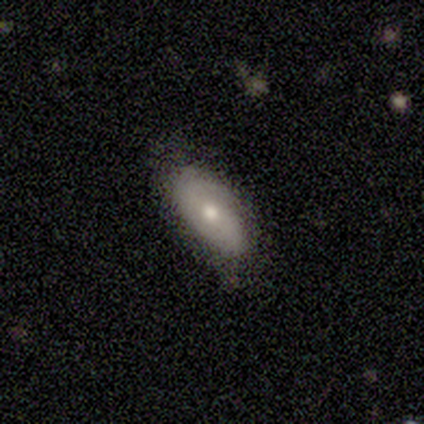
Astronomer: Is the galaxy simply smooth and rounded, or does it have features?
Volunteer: featured or disk — 60% (runner-up: smooth, 40%).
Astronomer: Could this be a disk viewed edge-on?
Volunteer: no — 100%.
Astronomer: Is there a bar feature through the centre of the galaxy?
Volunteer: no — 67%.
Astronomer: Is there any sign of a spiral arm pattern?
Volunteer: no — 100%.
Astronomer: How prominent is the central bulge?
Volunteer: moderate — 100%.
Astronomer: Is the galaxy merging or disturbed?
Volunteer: none — 60% (runner-up: minor disturbance, 40%).